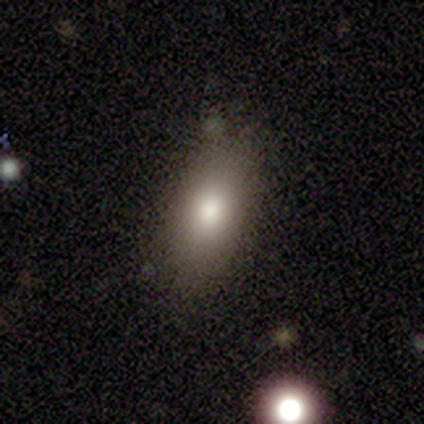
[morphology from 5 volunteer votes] This is marginally a smooth galaxy (40%, tied with featured or disk). How rounded: clearly in between (100%). Merging: possibly none (50%).